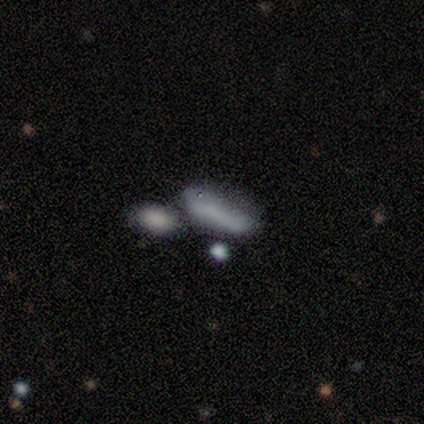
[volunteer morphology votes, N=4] This is possibly a smooth galaxy (50%). How rounded: possibly in between (50%, tied with cigar-shaped). Merging: likely none (67%).